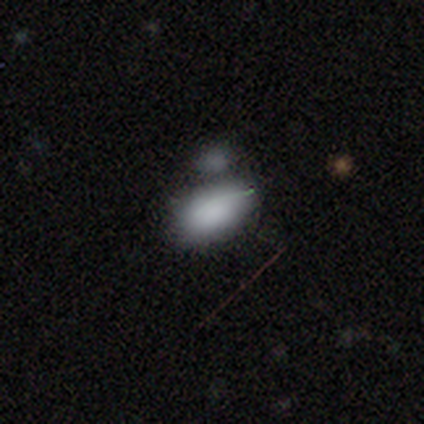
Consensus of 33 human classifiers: smooth-or-featured: smooth: 88% | featured or disk: 6% | star or artifact: 6%
  how-rounded: in between: 86% | round: 7% | cigar-shaped: 7%
  merging: merger: 71% | none: 0% | minor disturbance: 0% | major disturbance: 0%